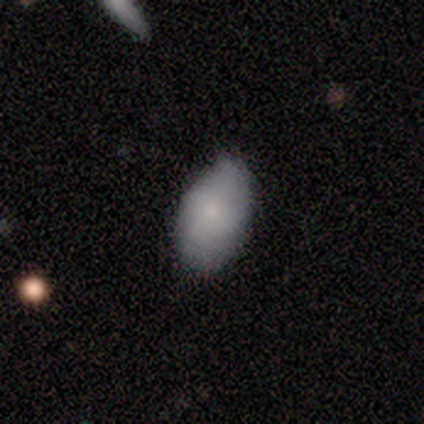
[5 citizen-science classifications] This is clearly a smooth galaxy (100%). How rounded: clearly in between (100%). Merging: likely minor disturbance (60%).